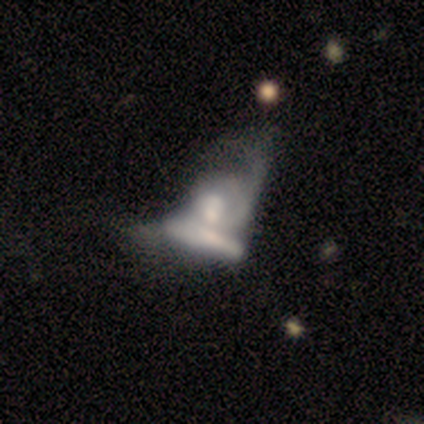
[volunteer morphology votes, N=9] smooth-or-featured: featured or disk: 56% | smooth: 22% | star or artifact: 22%
  disk-edge-on: no: 80% | yes: 20%
    bar: weak: 50% (tied) | no: 50% (tied) | strong: 0%
    has-spiral-arms: yes: 75% | no: 25%
      spiral-winding: loose: 67% | tight: 33% | medium: 0%
      spiral-arm-count: can't tell: 67% | 2: 33% | 1: 0% | 3: 0% | 4: 0% | more than 4: 0%
    bulge-size: moderate: 100% | dominant: 0% | large: 0% | small: 0% | none: 0%
  merging: merger: 100% | none: 0% | minor disturbance: 0% | major disturbance: 0%